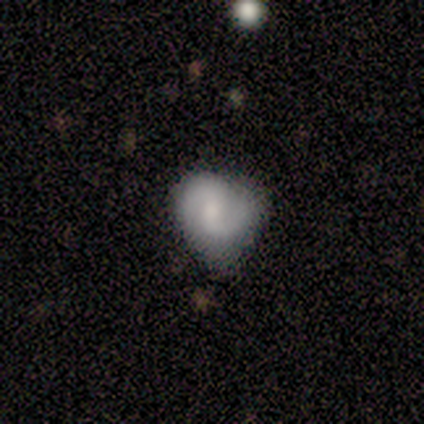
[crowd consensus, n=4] Morphology: type=featured or disk (75%); edge-on=no (100%); bar=strong (33%, tied with weak and no); spiral arms=yes (67%); winding=medium (50%, tied with loose); arm count=2 (100%); bulge=small (67%); merging=none (50%, tied with minor disturbance).